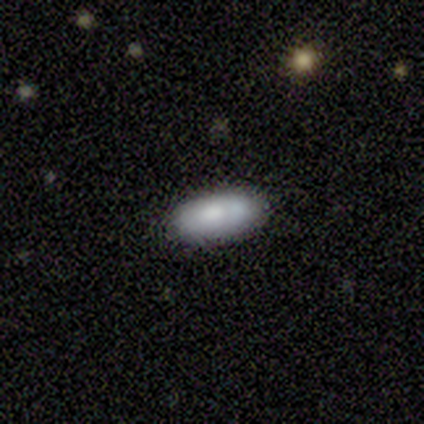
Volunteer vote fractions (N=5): smooth_or_featured: smooth (p=0.60) [alt: featured or disk p=0.40]
how_rounded: in between (p=1.00)
merging: none (p=1.00)